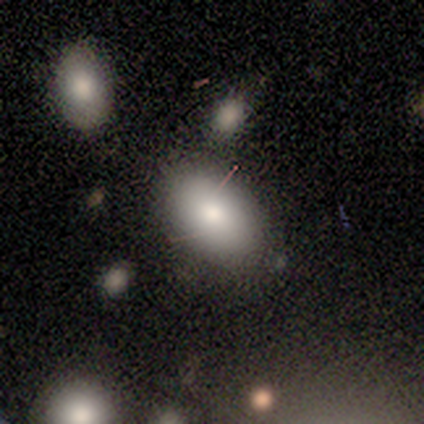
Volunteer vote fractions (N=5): A smooth galaxy with no disk features (100%) that is in between round and cigar-shaped (80%). Merging: none (80%).